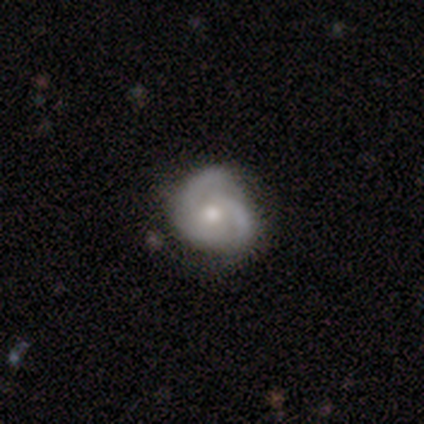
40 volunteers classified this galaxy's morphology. A featured or disk galaxy (70%) with no bar (82%), 2 (42%) tight (38%) spiral arms (93%) and a moderate central bulge (71%). Merging: none (68%).